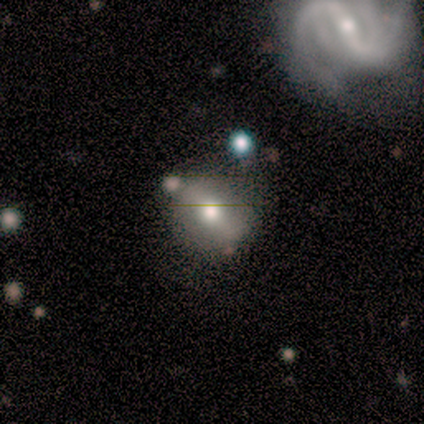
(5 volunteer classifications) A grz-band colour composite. It shows a smooth galaxy with no disk features (80%) that is round (100%). Merging: none (80%).